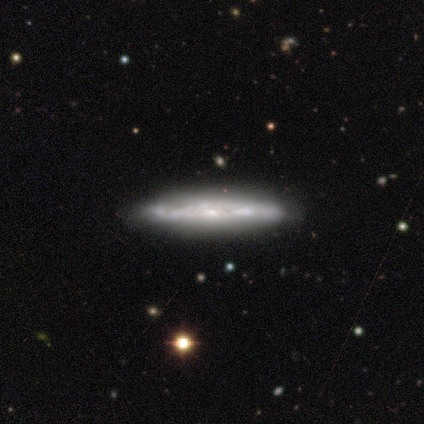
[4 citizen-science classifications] smooth-or-featured: featured or disk: 100% | smooth: 0% | star or artifact: 0%
  disk-edge-on: yes: 100% | no: 0%
    edge-on-bulge: none: 75% | boxy: 25% | rounded: 0%
  merging: none: 75% | minor disturbance: 25% | major disturbance: 0% | merger: 0%